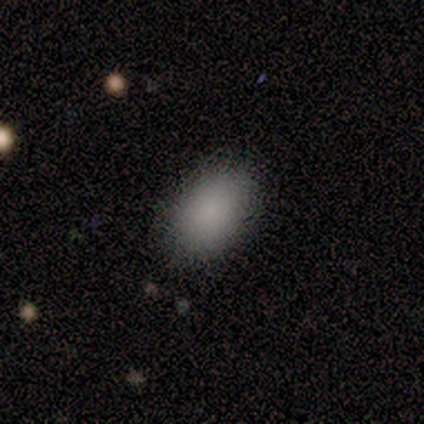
smooth 75%, featured or disk 25%, star or artifact 0%. Down the decision tree: how rounded — in between (100%); merging — none (75%).